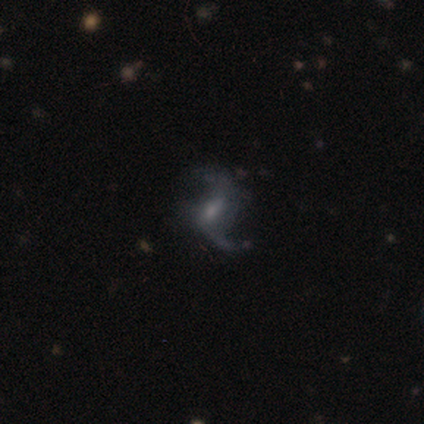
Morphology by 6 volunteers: Q: Smooth or featured?
A: featured or disk (67%); runner-up: smooth (33%)
Q: Edge-on disk?
A: no (100%)
Q: Bar?
A: no (50%); runner-up: strong (25%)
Q: Spiral arms?
A: yes (50%); tied with: no (50%)
Q: Spiral winding?
A: loose (100%)
Q: Spiral arm count?
A: 2 (100%)
Q: Bulge size?
A: none (50%); runner-up: moderate (25%)
Q: Merging?
A: none (50%); runner-up: major disturbance (33%)